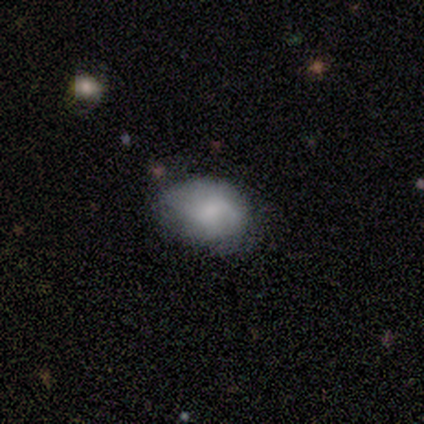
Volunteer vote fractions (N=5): Smooth or featured? smooth (80%)
How rounded? in between (75%)
Merging? none (60%)